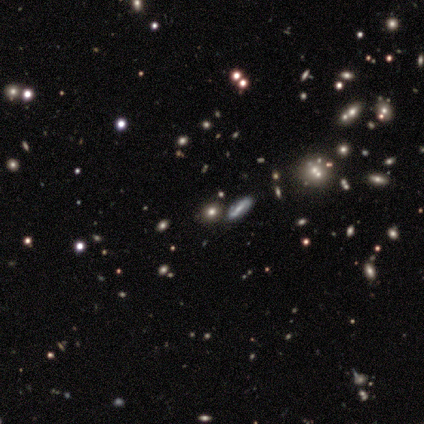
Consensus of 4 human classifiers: A smooth galaxy with no disk features (100%) that is round (100%). Merging: none (100%).